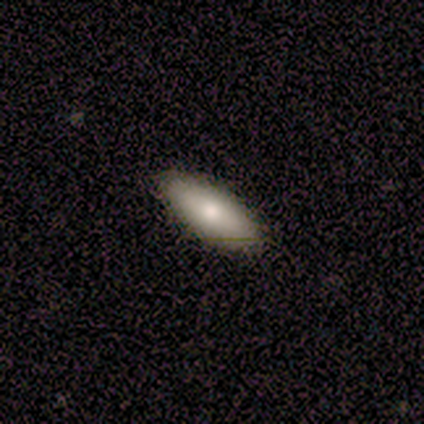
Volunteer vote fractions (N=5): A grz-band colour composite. It shows a smooth galaxy with no disk features (80%) that is in between round and cigar-shaped (50%, tied with cigar-shaped). Merging: none (80%).